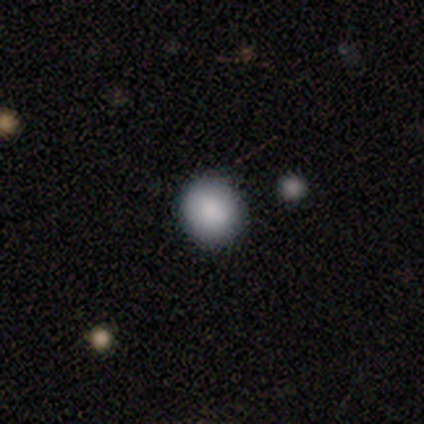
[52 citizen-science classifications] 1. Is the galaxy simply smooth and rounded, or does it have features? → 87% smooth, 10% star or artifact, 4% featured or disk.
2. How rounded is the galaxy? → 93% round, 7% in between, 0% cigar-shaped.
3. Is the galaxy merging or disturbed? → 96% none, 4% minor disturbance, 0% major disturbance, 0% merger.